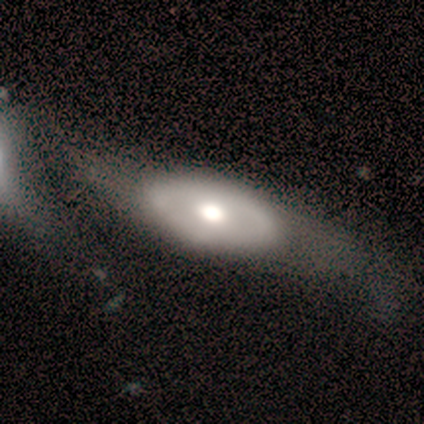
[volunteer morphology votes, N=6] Smooth or featured? 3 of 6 (50%, tied with featured or disk) said smooth. How rounded? 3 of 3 (100%) said in between. Merging? 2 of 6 (33%, tied with merger) said minor disturbance.